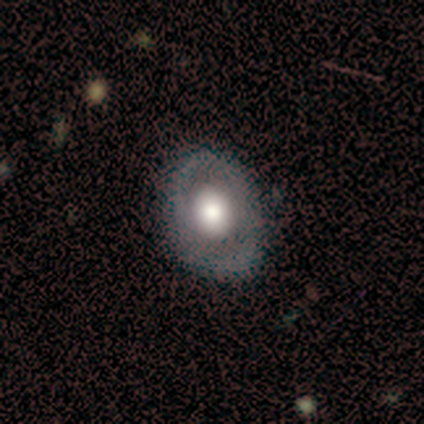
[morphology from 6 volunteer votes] A smooth galaxy with no disk features (50%) that is in between round and cigar-shaped (100%).

Vote fractions:
- Smooth or featured? smooth: 50% / featured or disk: 33% / star or artifact: 17%
- How rounded? in between: 100% / round: 0% / cigar-shaped: 0%
- Merging? none: 80% / minor disturbance: 20% / major disturbance: 0% / merger: 0%